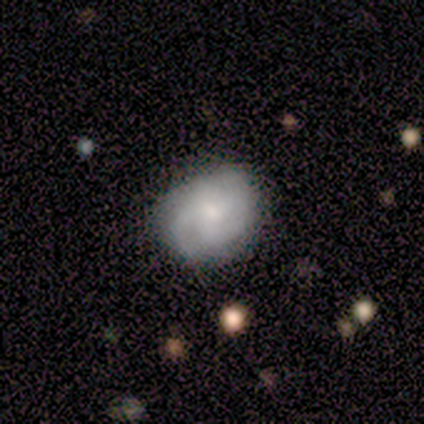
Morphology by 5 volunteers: Volunteers were most divided on "smooth or featured": smooth: 60%, featured or disk: 40%, star or artifact: 0%. More confident: merging — none (80%); how rounded — round (67%).